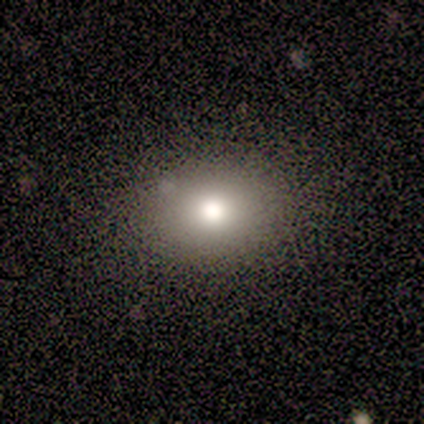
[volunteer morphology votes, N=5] type=smooth (100%); roundness=in between (60%); merging=none (100%).